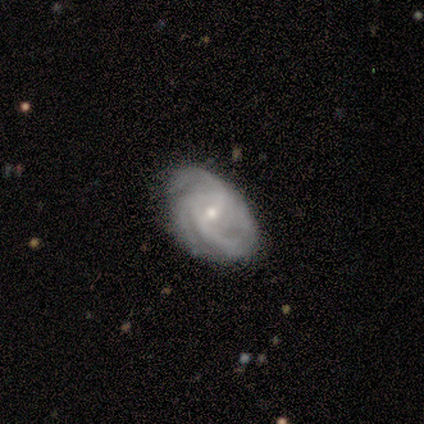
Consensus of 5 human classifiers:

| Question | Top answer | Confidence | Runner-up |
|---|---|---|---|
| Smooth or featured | featured or disk | 100% | — |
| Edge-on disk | no | 100% | — |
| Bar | weak | 80% | no (20%) |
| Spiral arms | yes | 100% | — |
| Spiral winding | medium | 60% | tight (20%) |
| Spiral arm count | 3 | 60% | 2 (20%) |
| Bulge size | small | 80% | moderate (20%) |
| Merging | none | 100% | — |